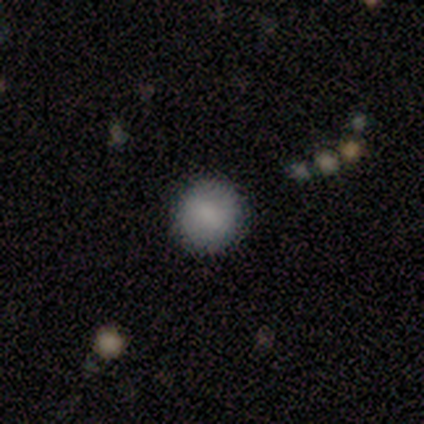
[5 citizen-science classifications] smooth_or_featured: smooth (p=0.80) [alt: featured or disk p=0.20]
how_rounded: round (p=1.00)
merging: none (p=1.00)